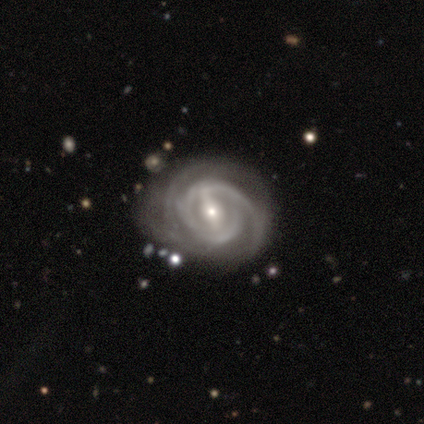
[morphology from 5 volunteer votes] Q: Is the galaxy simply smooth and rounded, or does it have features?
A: featured or disk — 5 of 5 (100%).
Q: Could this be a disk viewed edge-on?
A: no — 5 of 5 (100%).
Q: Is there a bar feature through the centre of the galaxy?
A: weak — 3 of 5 (60%).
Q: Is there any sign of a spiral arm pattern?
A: yes — 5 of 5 (100%).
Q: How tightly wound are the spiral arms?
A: tight — 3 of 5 (60%).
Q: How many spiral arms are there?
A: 2 — 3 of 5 (60%).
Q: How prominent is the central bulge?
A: moderate — 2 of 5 (40%, tied with small).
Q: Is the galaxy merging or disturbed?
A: none — 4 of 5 (80%).